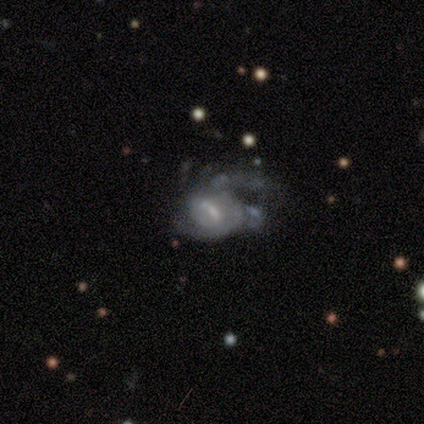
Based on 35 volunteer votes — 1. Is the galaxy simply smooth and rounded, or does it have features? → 80% featured or disk, 14% smooth, 6% star or artifact.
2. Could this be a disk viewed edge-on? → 100% no, 0% yes.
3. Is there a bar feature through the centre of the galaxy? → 43% weak, 36% no, 21% strong.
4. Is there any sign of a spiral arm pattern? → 71% yes, 29% no.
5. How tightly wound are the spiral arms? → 60% medium, 30% tight, 10% loose.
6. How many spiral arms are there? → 35% 2 (tied), 35% can't tell (tied), 15% 1, 10% 3, 5% 4, 0% more than 4.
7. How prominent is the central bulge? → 36% moderate (tied), 36% small (tied), 14% large, 14% none, 0% dominant.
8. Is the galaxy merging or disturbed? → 55% major disturbance, 21% minor disturbance, 15% merger, 9% none.